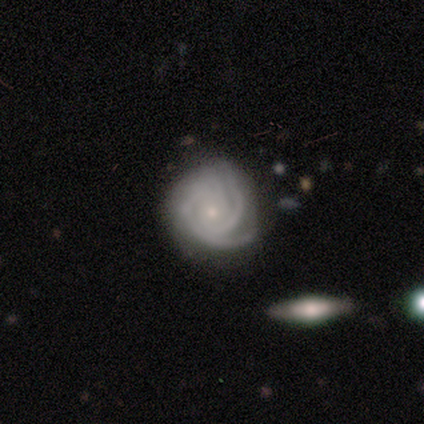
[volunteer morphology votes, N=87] type=featured or disk (84%); edge-on=no (100%); bar=no (77%); spiral arms=yes (100%); winding=tight (85%); arm count=3 (44%); bulge=small (85%); merging=none (72%).